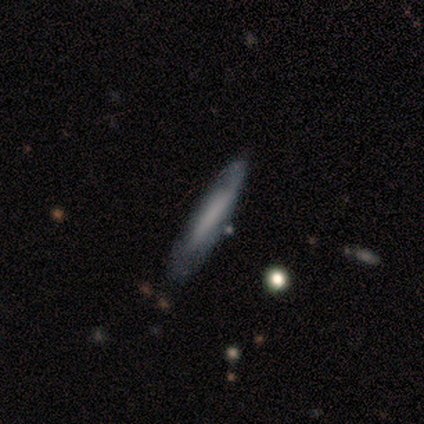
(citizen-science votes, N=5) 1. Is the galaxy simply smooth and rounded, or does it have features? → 60% smooth, 40% featured or disk, 0% star or artifact.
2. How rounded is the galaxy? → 100% cigar-shaped, 0% round, 0% in between.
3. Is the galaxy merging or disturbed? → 60% none, 20% minor disturbance, 20% major disturbance, 0% merger.